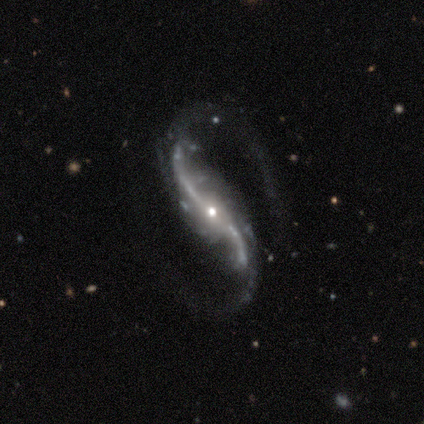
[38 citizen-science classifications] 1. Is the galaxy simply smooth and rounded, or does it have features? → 97% featured or disk, 3% star or artifact, 0% smooth.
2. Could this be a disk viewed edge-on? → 95% no, 5% yes.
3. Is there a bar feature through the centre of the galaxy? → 46% no, 37% strong, 17% weak.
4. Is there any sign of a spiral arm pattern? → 100% yes, 0% no.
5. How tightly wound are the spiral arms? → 89% loose, 11% medium, 0% tight.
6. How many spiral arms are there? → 94% 2, 3% 3, 3% can't tell, 0% 1, 0% 4, 0% more than 4.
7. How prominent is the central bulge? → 71% small, 20% moderate, 9% large, 0% dominant, 0% none.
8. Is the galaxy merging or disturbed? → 54% none, 24% major disturbance, 3% minor disturbance, 3% merger.